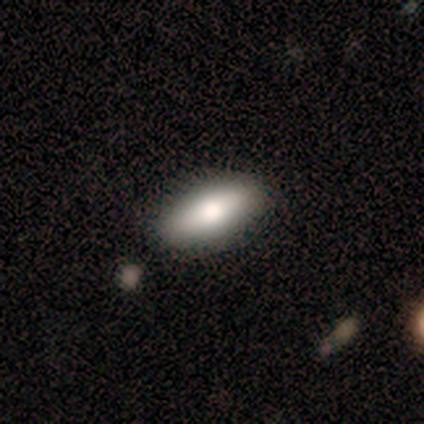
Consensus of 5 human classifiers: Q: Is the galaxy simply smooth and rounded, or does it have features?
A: smooth — 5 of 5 (100%).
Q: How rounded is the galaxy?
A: in between — 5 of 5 (100%).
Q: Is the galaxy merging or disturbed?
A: none — 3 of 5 (60%).